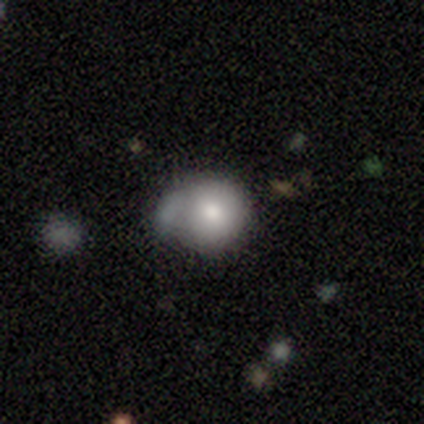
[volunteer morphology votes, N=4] smooth_or_featured: smooth (p=0.75) [alt: featured or disk p=0.25]
how_rounded: round (p=0.67) [alt: in between p=0.33]
merging: minor disturbance (p=0.50) [alt: none p=0.25]